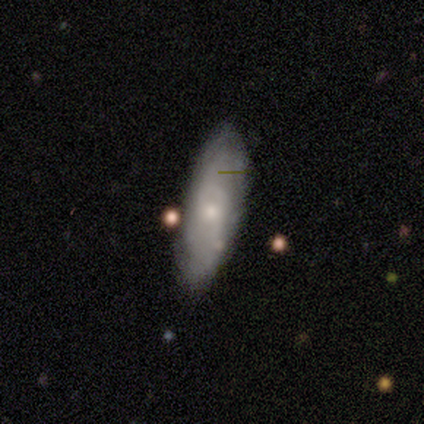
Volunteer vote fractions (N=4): This is likely a smooth galaxy (75%). How rounded: likely cigar-shaped (67%). Merging: likely none (75%).